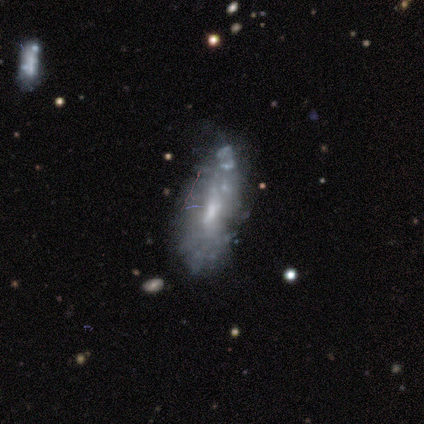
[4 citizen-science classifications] This appears to be a featured or disk galaxy (100%) with a weak bar (50%, tied with no), no spiral arms (100%) and a moderate central bulge (50%, tied with small). Merging: major disturbance (75%).